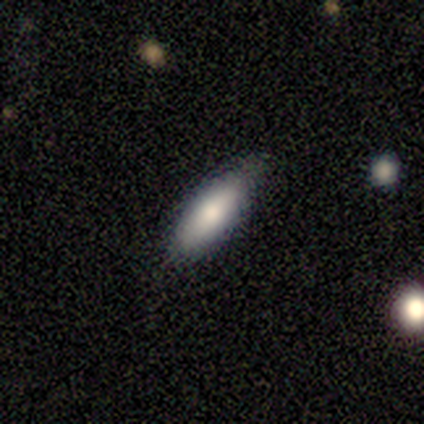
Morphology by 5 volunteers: Smooth or featured? smooth (80%)
How rounded? in between (100%)
Merging? none (60%)